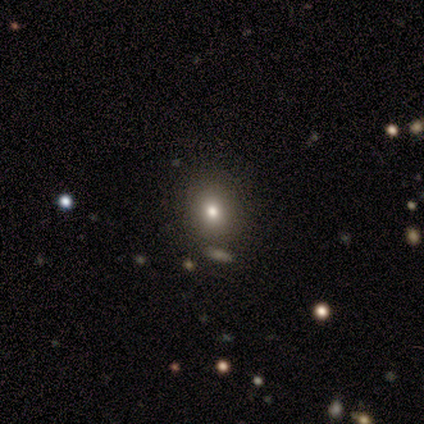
Morphology: type=smooth (40%, tied with featured or disk); roundness=round (100%); merging=none (100%).